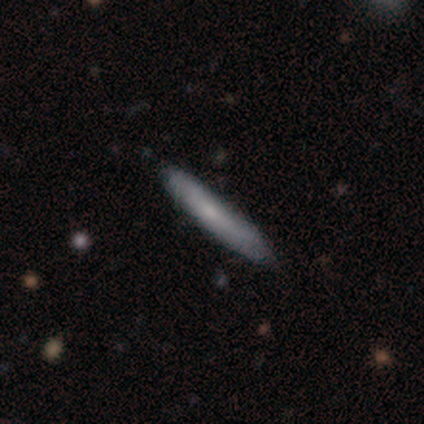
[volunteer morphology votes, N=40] Smooth or featured? smooth (62%)
How rounded? cigar-shaped (100%)
Merging? none (82%)